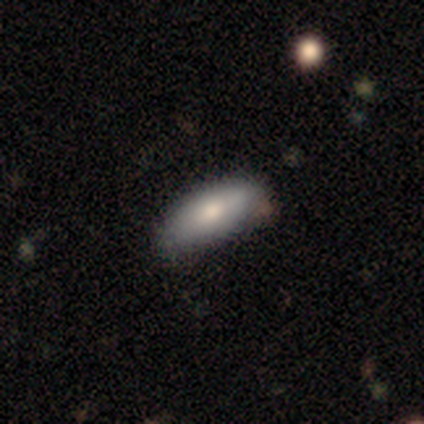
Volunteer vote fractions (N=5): Smooth or featured: smooth — 80% (featured or disk — 20%)
How rounded: in between — 100%
Merging: none — 80% (minor disturbance — 20%)